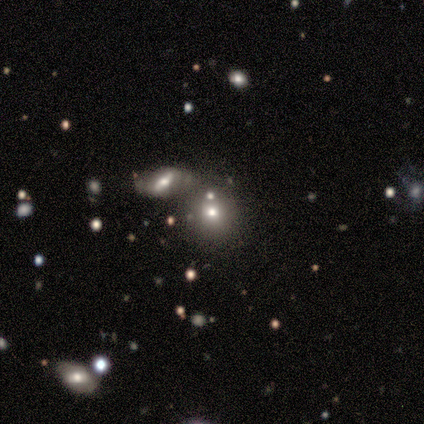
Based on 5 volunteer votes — A smooth galaxy with no disk features (80%) that is round (100%).

Vote fractions:
- Smooth or featured? smooth: 80% / star or artifact: 20% / featured or disk: 0%
- How rounded? round: 100% / in between: 0% / cigar-shaped: 0%
- Merging? merger: 75% / none: 25% / minor disturbance: 0% / major disturbance: 0%